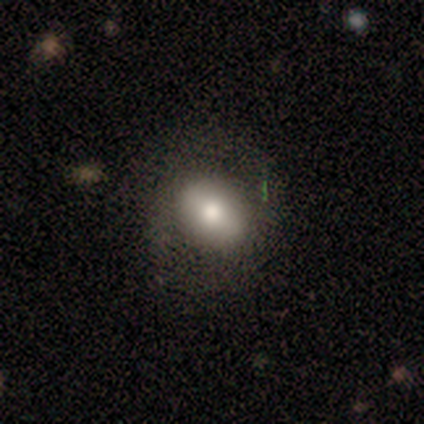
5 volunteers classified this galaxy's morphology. A smooth galaxy with no disk features (80%) that is in between round and cigar-shaped (75%). Merging: none (100%).